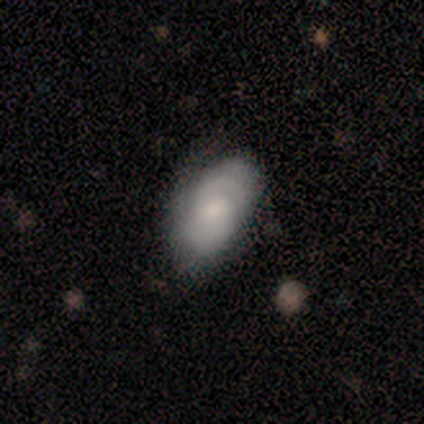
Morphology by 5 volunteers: Volunteers were most divided on "smooth or featured": smooth: 80%, featured or disk: 20%, star or artifact: 0%. More confident: how rounded — in between (100%); merging — none (80%).